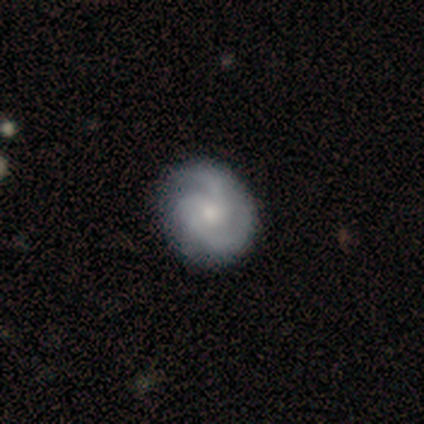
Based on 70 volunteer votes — smooth_or_featured: featured or disk (p=0.80) [alt: smooth p=0.16]
disk_edge_on: no (p=0.98) [alt: yes p=0.02]
bar: no (p=0.80) [alt: weak p=0.20]
has_spiral_arms: yes (p=0.98) [alt: no p=0.02]
spiral_winding: tight (p=0.54) [alt: medium p=0.39]
spiral_arm_count: 3 (p=0.44) [alt: 2 p=0.43]
bulge_size: small (p=0.45) [alt: moderate p=0.42]
merging: none (p=0.90) [alt: minor disturbance p=0.06]